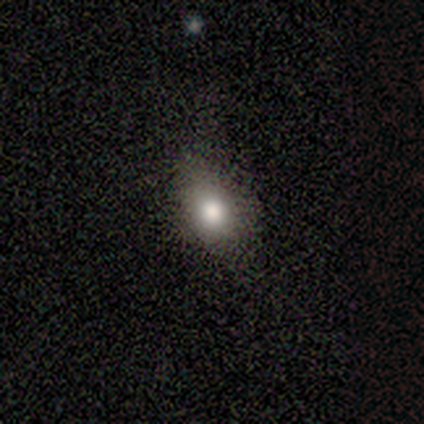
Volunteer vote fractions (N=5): Smooth or featured: smooth — 100%
How rounded: in between — 100%
Merging: none — 60% (minor disturbance — 20%)